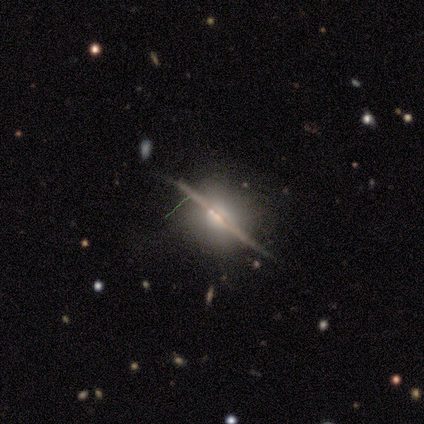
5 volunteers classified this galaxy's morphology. smooth_or_featured: featured or disk (p=1.00)
disk_edge_on: yes (p=1.00)
edge_on_bulge: rounded (p=0.80) [alt: boxy p=0.20]
merging: none (p=0.80) [alt: minor disturbance p=0.20]